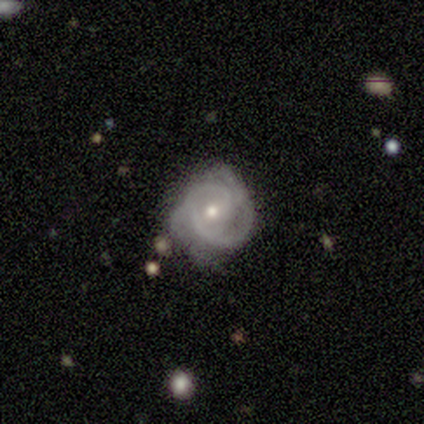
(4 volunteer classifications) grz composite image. It shows a featured or disk galaxy (100%) with no bar (100%), tight (75%) spiral arms (100%) and a small central bulge (100%). Merging: none (75%).